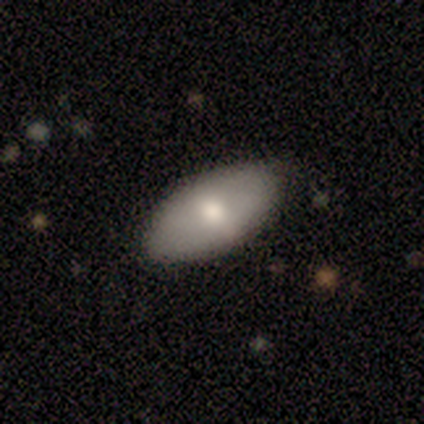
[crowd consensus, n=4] A smooth galaxy with no disk features (100%) that is in between round and cigar-shaped (100%). Merging: none (100%).